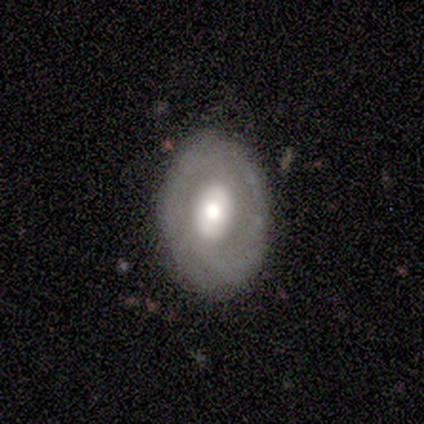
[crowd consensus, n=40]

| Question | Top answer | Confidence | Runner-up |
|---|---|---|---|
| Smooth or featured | featured or disk | 52% | smooth (42%) |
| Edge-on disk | no | 95% | yes (5%) |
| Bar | no | 70% | strong (15%) |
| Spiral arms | no | 70% | yes (30%) |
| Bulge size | large | 45% | tied: moderate (45%) |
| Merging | none | 68% | minor disturbance (18%) |